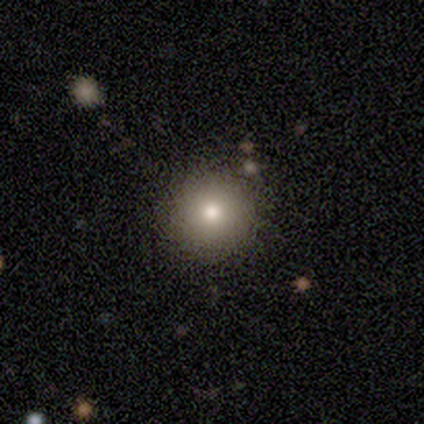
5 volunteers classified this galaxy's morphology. Volunteers were most divided on "merging": none: 60%, minor disturbance: 40%, major disturbance: 0%, merger: 0%. More confident: smooth or featured — smooth (80%); how rounded — round (75%).